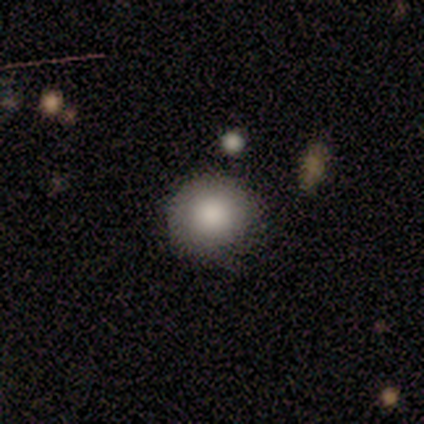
A smooth galaxy with no disk features (87%) that is round (91%).

Vote fractions:
- Smooth or featured? smooth: 87% / star or artifact: 8% / featured or disk: 5%
- How rounded? round: 91% / in between: 9% / cigar-shaped: 0%
- Merging? none: 50% / minor disturbance: 19% / merger: 8% / major disturbance: 0%